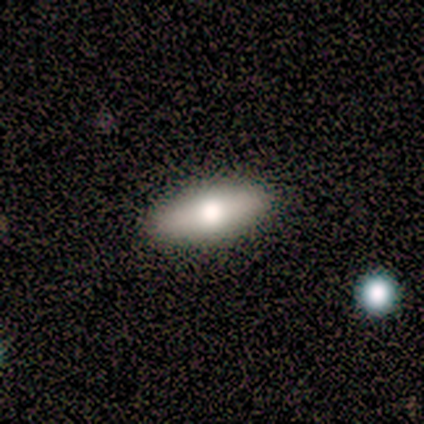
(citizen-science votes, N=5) smooth-or-featured: smooth: 100% | featured or disk: 0% | star or artifact: 0%
  how-rounded: in between: 80% | cigar-shaped: 20% | round: 0%
  merging: none: 100% | minor disturbance: 0% | major disturbance: 0% | merger: 0%